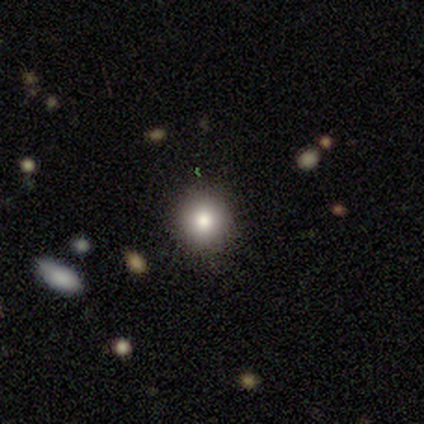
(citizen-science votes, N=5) Overall: smooth (80%). How rounded: round (100%). Merging: none (100%).